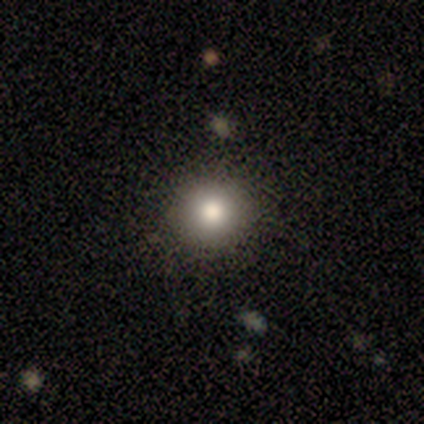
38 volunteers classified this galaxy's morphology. Smooth or featured: smooth — 76% (star or artifact — 16%)
How rounded: round — 93% (in between — 7%)
Merging: none — 78% (minor disturbance — 12%)